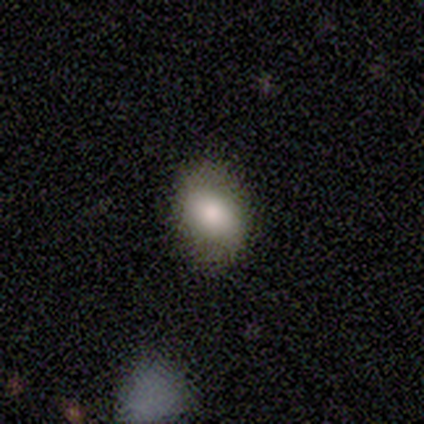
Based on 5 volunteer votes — smooth_or_featured: smooth (p=1.00)
how_rounded: in between (p=0.60) [alt: round p=0.40]
merging: none (p=0.60) [alt: minor disturbance p=0.40]